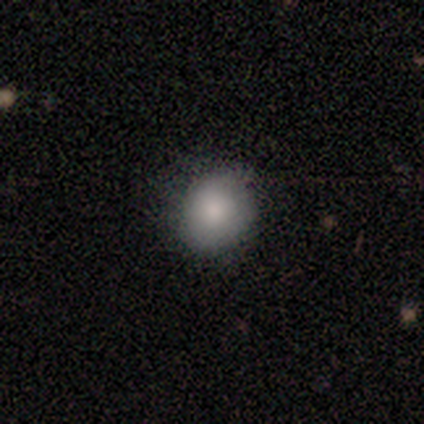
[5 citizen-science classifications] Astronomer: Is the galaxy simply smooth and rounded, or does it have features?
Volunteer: smooth — 80%.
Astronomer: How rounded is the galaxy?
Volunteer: round — 50%, tied with in between at 50%.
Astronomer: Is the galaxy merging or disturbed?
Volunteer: none — 40%, tied with minor disturbance at 40%.